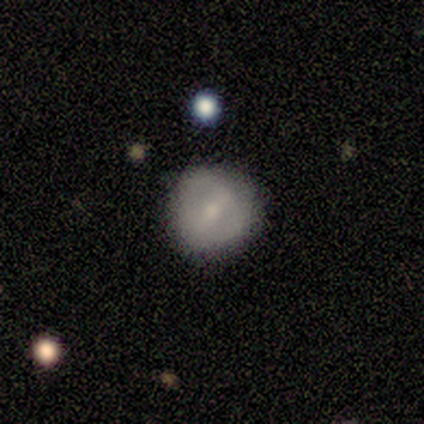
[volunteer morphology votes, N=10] Q: Smooth or featured?
A: smooth (50%); tied with: featured or disk (50%)
Q: How rounded?
A: round (60%); runner-up: in between (40%)
Q: Merging?
A: none (60%); runner-up: minor disturbance (40%)